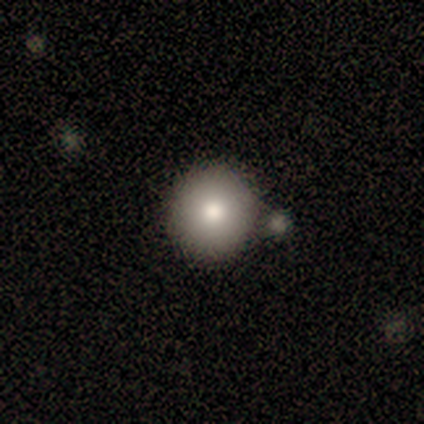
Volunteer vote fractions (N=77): Smooth or featured?
  - smooth: 78% *
  - featured or disk: 12%
  - star or artifact: 10%
How rounded?
  - round: 93% *
  - in between: 7%
  - cigar-shaped: 0%
Merging?
  - none: 39% *
  - merger: 19%
  - minor disturbance: 9%
  - major disturbance: 3%